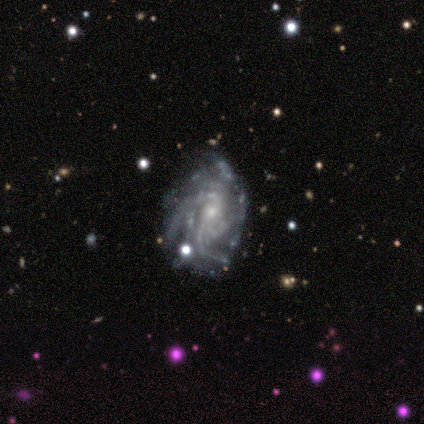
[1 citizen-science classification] Smooth or featured? featured or disk (100%)
Edge-on disk? no (100%)
Bar? weak (100%)
Spiral arms? yes (100%)
Spiral winding? medium (100%)
Spiral arm count? 2 (100%)
Bulge size? small (100%)
Merging? none (100%)